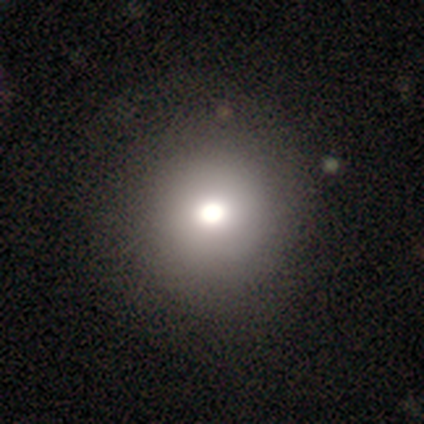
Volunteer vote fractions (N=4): A smooth galaxy with no disk features (50%) that is round (100%). Merging: minor disturbance (67%).